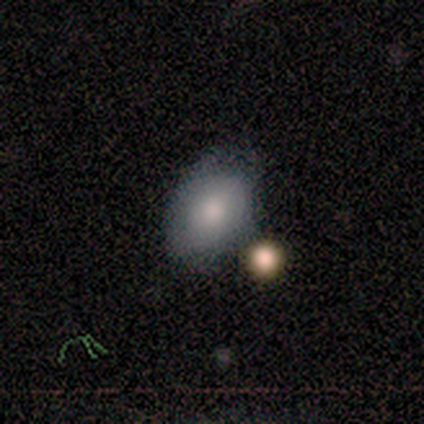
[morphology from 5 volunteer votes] A smooth galaxy with no disk features (80%) that is in between round and cigar-shaped (100%).

Vote fractions:
- Smooth or featured? smooth: 80% / featured or disk: 20% / star or artifact: 0%
- How rounded? in between: 100% / round: 0% / cigar-shaped: 0%
- Merging? none: 40% (tied) / minor disturbance: 40% (tied) / merger: 20% / major disturbance: 0%